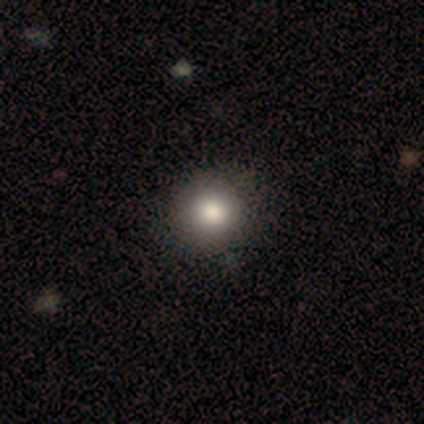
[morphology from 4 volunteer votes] This is clearly a smooth galaxy (100%). How rounded: clearly round (100%). Merging: clearly none (100%).